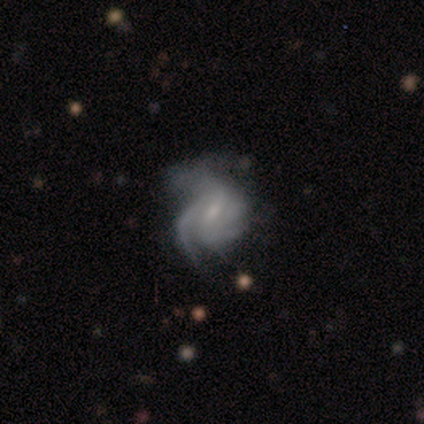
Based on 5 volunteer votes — A featured or disk galaxy (60%) with no bar (67%), tight (67%) spiral arms (100%) and a small central bulge (67%). Merging: minor disturbance (50%).